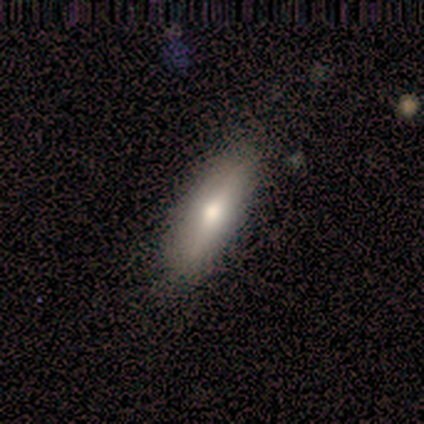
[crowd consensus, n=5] Smooth or featured? 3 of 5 (60%) said smooth. How rounded? 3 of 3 (100%) said in between. Merging? 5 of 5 (100%) said none.